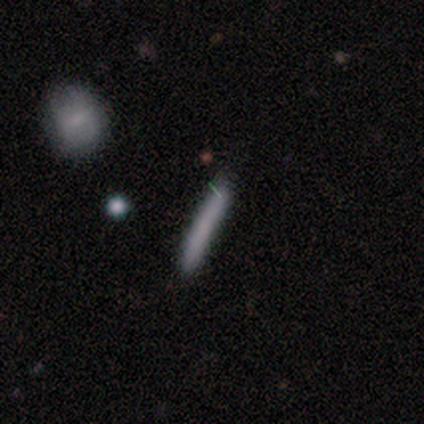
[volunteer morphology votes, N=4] Overall: smooth (75%). How rounded: cigar-shaped (100%). Merging: none (75%).